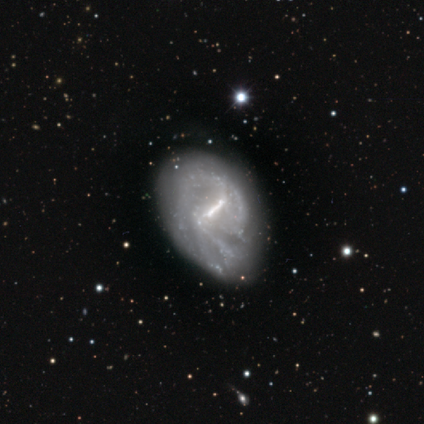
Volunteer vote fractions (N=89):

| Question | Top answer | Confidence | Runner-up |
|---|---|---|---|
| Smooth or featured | featured or disk | 88% | smooth (9%) |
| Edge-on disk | no | 96% | yes (4%) |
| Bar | strong | 67% | weak (31%) |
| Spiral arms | yes | 87% | no (13%) |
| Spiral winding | medium | 46% | tight (42%) |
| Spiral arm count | can't tell | 37% | 2 (34%) |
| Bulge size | none | 44% | moderate (27%) |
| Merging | none | 63% | minor disturbance (31%) |